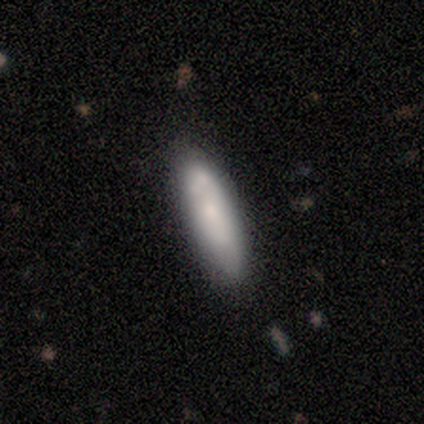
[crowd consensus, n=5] This is likely a smooth galaxy (60%). How rounded: likely cigar-shaped (67%). Merging: clearly none (80%).